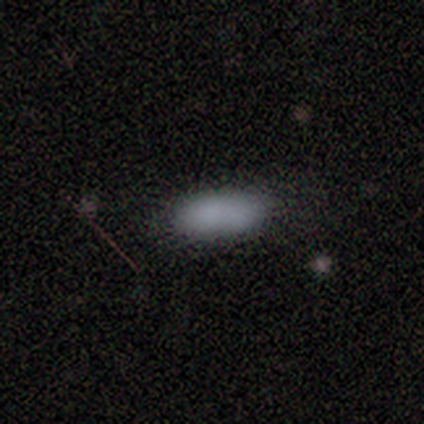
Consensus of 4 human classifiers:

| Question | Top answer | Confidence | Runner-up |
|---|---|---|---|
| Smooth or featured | smooth | 100% | — |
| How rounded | in between | 100% | — |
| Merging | none | 75% | minor disturbance (25%) |